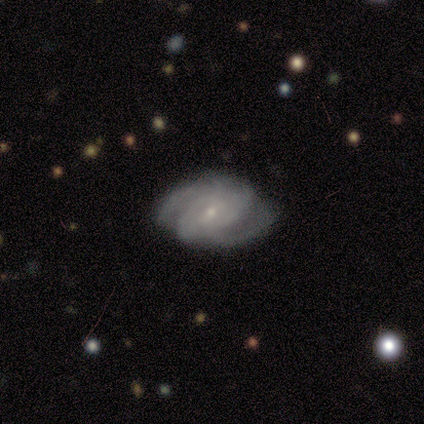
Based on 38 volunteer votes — featured or disk 87%, smooth 13%, star or artifact 0%. Down the decision tree: edge-on disk — no (94%); bar — no (58%); spiral arms — yes (100%); spiral arm count — can't tell (29%); spiral winding — medium (48%); bulge size — small (74%); merging — none (74%).